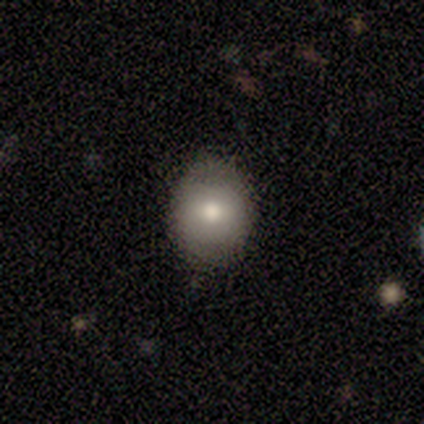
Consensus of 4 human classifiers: A smooth galaxy with no disk features (75%) that is round (100%). Merging: none (100%).